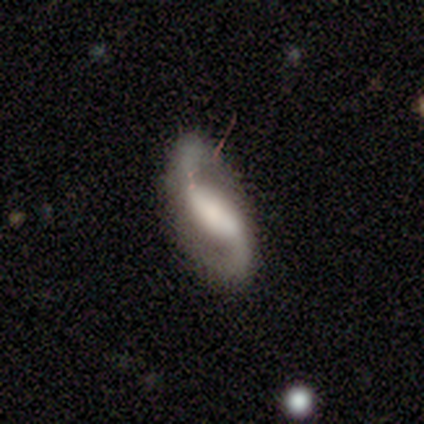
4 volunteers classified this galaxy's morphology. Smooth or featured: featured or disk — 100%
Edge-on disk: no — 100%
Bar: weak — 75% (strong — 25%)
Spiral arms: yes — 100%
Spiral winding: medium — 75% (loose — 25%)
Spiral arm count: 2 — 100%
Bulge size: none — 50% (dominant — 25%)
Merging: none — 75% (minor disturbance — 25%)